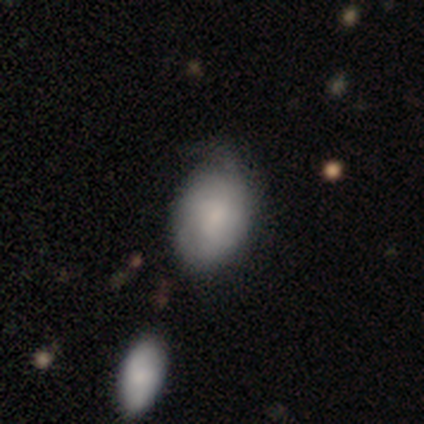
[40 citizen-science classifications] Morphology: type=smooth (72%); roundness=in between (69%); merging=minor disturbance (51%).